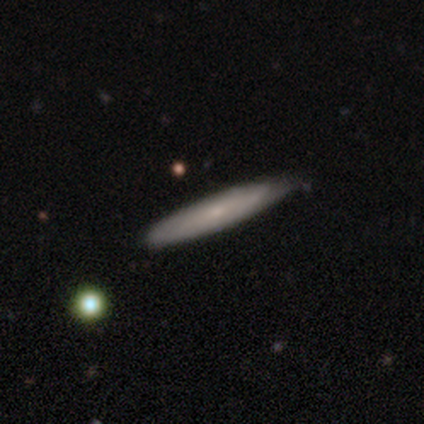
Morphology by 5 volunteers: Smooth or featured: featured or disk — 80% (smooth — 20%)
Edge-on disk: yes — 75% (no — 25%)
Edge-on bulge: rounded — 67% (none — 33%)
Merging: none — 100%